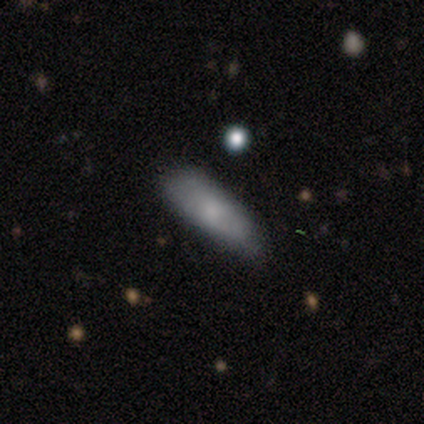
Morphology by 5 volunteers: Overall: smooth (100%). How rounded: cigar-shaped (60%; in between 40%). Merging: none (80%).